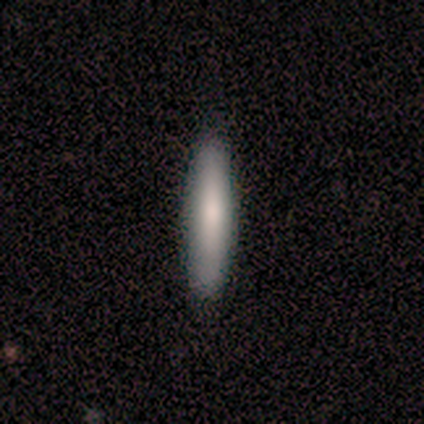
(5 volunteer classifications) Volunteers were most divided on "how rounded": cigar-shaped: 80%, in between: 20%, round: 0%. More confident: smooth or featured — smooth (100%); merging — none (100%).